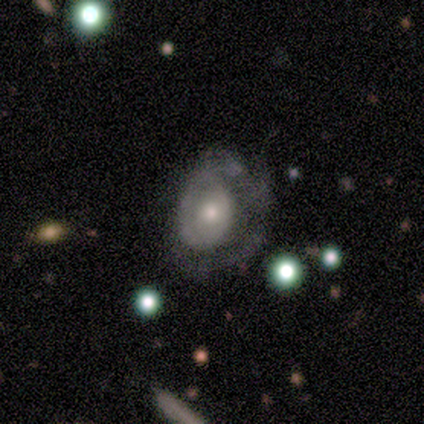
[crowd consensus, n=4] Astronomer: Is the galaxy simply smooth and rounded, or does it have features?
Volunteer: featured or disk — 75%.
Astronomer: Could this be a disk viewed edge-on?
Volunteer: no — 100%.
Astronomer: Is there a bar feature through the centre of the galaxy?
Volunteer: no — 67%.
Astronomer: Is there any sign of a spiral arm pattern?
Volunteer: yes — 67%.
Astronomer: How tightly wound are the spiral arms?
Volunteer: tight — 50%, tied with loose at 50%.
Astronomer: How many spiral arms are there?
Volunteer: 1 — 100%.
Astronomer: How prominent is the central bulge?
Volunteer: small — 100%.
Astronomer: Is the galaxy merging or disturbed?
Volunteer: major disturbance — 75%.